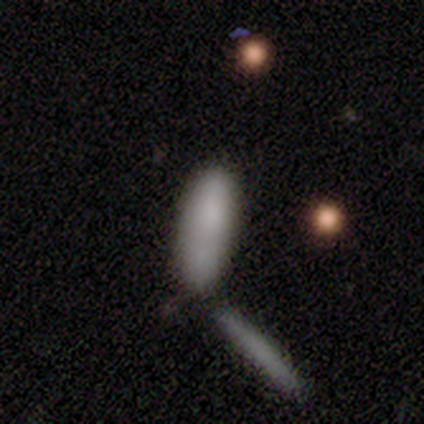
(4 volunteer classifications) A smooth galaxy with no disk features (75%) that is in between round and cigar-shaped (67%).

Vote fractions:
- Smooth or featured? smooth: 75% / featured or disk: 25% / star or artifact: 0%
- How rounded? in between: 67% / cigar-shaped: 33% / round: 0%
- Merging? merger: 50% / none: 25% / minor disturbance: 25% / major disturbance: 0%